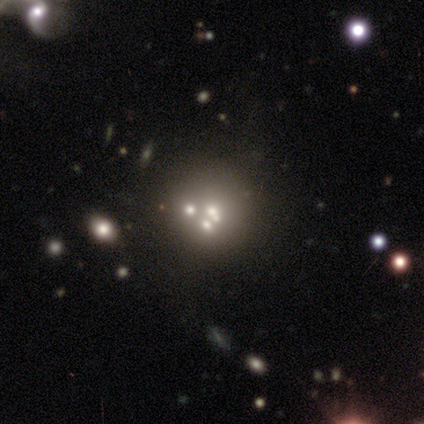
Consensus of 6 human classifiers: Smooth or featured? smooth (50%, tied with featured or disk)
How rounded? round (100%)
Merging? merger (50%)